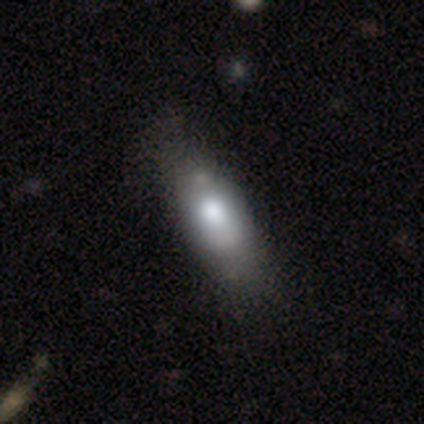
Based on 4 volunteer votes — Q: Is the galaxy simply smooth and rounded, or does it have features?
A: smooth — 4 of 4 (100%).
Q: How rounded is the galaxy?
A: in between — 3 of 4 (75%).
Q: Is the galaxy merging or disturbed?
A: none — 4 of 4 (100%).